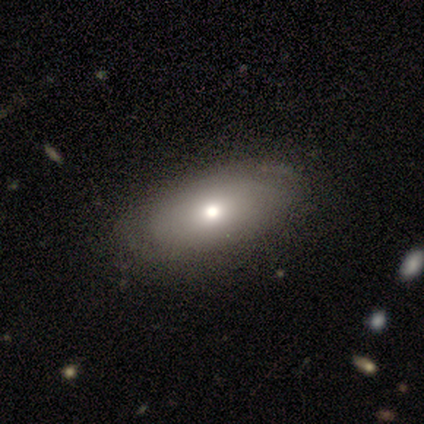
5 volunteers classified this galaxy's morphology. Smooth or featured? 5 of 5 (100%) said smooth. How rounded? 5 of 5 (100%) said in between. Merging? 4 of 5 (80%) said none.